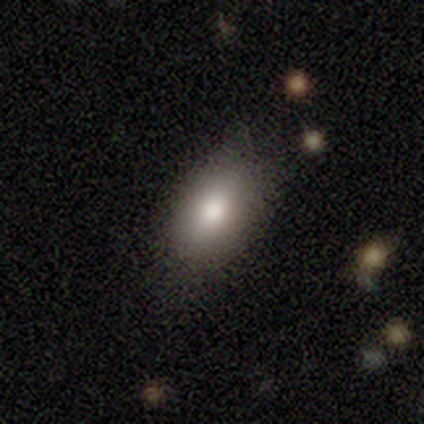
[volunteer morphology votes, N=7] smooth 71%, featured or disk 14%, star or artifact 14%. Down the decision tree: how rounded — in between (80%); merging — none (67%).